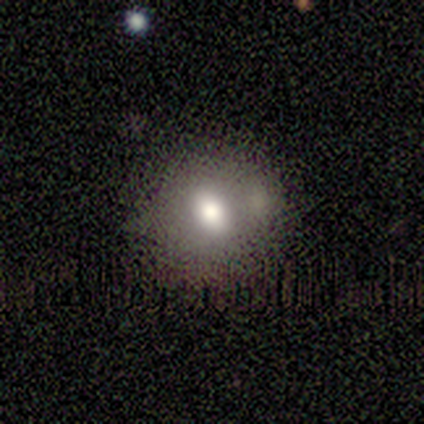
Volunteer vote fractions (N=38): Volunteers were most divided on "merging": none: 59%, merger: 18%, minor disturbance: 15%, major disturbance: 9%. More confident: smooth or featured — smooth (84%); how rounded — round (78%).